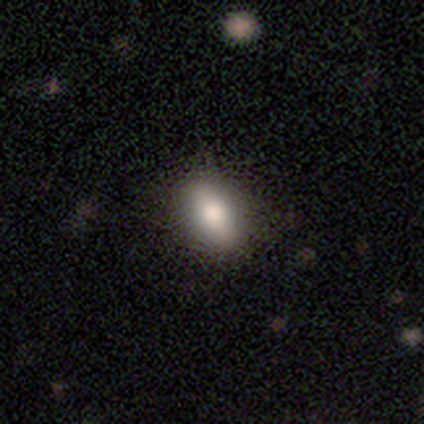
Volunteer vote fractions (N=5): A smooth galaxy with no disk features (80%) that is in between round and cigar-shaped (100%).

Vote fractions:
- Smooth or featured? smooth: 80% / featured or disk: 20% / star or artifact: 0%
- How rounded? in between: 100% / round: 0% / cigar-shaped: 0%
- Merging? none: 100% / minor disturbance: 0% / major disturbance: 0% / merger: 0%